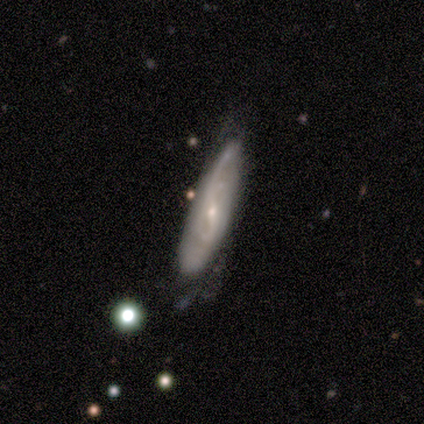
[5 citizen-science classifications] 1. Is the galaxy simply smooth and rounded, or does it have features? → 100% featured or disk, 0% smooth, 0% star or artifact.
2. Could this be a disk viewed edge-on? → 60% no, 40% yes.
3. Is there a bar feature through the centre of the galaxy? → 67% weak, 33% no, 0% strong.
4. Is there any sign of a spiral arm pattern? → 100% yes, 0% no.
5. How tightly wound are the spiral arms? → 33% tight (tied), 33% medium (tied), 33% loose (tied).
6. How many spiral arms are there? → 33% 1 (tied), 33% 2 (tied), 33% can't tell (tied), 0% 3, 0% 4, 0% more than 4.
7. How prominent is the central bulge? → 67% small, 33% moderate, 0% dominant, 0% large, 0% none.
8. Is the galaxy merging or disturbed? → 100% none, 0% minor disturbance, 0% major disturbance, 0% merger.